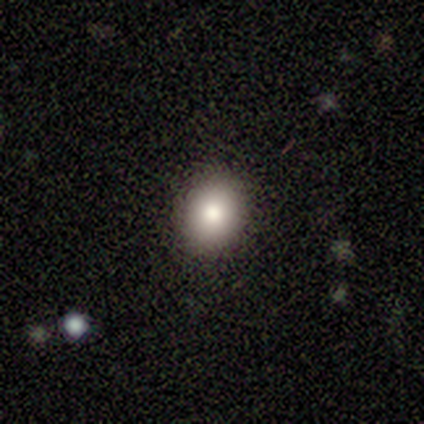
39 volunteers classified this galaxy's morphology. Smooth or featured? 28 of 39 (72%) said smooth. How rounded? 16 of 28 (57%) said round. Merging? 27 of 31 (87%) said none.